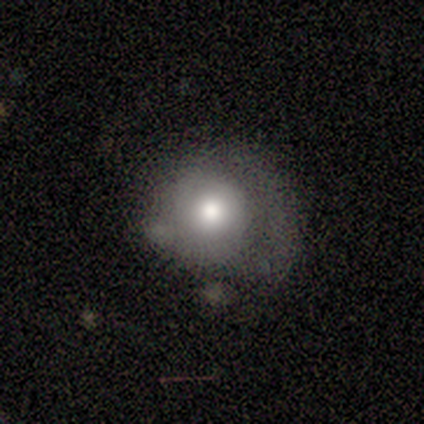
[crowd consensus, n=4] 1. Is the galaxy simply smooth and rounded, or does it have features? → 50% smooth, 25% featured or disk, 25% star or artifact.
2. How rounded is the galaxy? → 100% round, 0% in between, 0% cigar-shaped.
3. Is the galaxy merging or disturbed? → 67% major disturbance, 33% none, 0% minor disturbance, 0% merger.